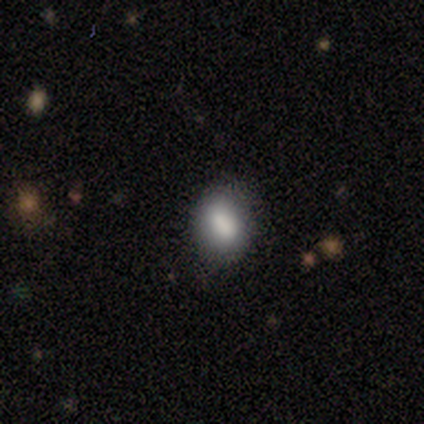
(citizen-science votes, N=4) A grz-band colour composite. It shows a smooth galaxy with no disk features (100%) that is in between round and cigar-shaped (75%). Merging: none (75%).